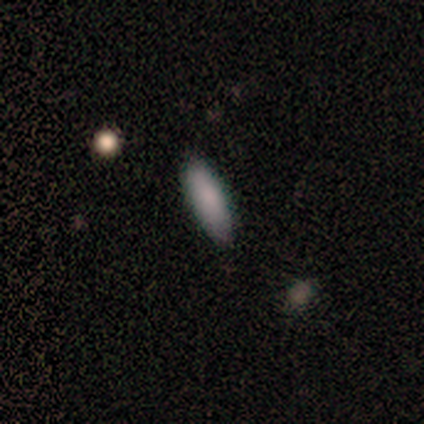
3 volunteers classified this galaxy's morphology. A smooth galaxy with no disk features (100%) that is cigar-shaped (67%). Merging: none (100%).